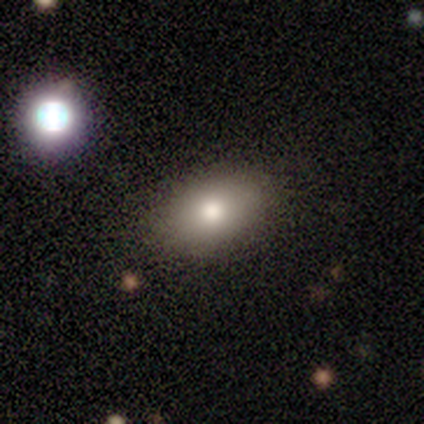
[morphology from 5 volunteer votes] Volunteers were most divided on "merging": none: 60%, minor disturbance: 20%, merger: 20%, major disturbance: 0%. More confident: how rounded — in between (100%); smooth or featured — smooth (80%).